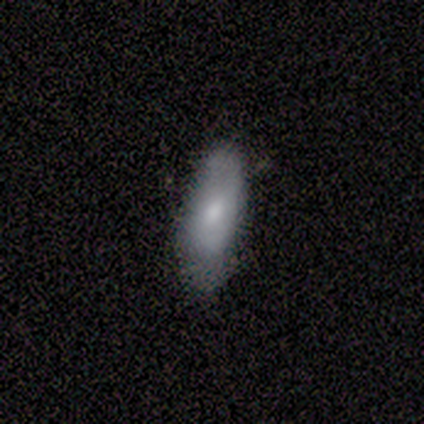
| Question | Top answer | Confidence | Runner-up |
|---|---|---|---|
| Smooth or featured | smooth | 57% | featured or disk (43%) |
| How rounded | in between | 100% | — |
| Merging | minor disturbance | 71% | none (29%) |